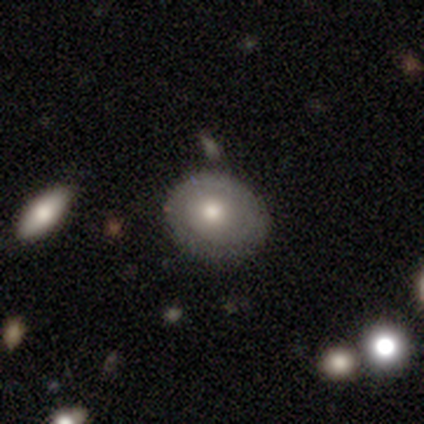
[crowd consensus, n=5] smooth-or-featured: smooth: 80% | featured or disk: 20% | star or artifact: 0%
  how-rounded: round: 75% | in between: 25% | cigar-shaped: 0%
  merging: minor disturbance: 60% | none: 40% | major disturbance: 0% | merger: 0%